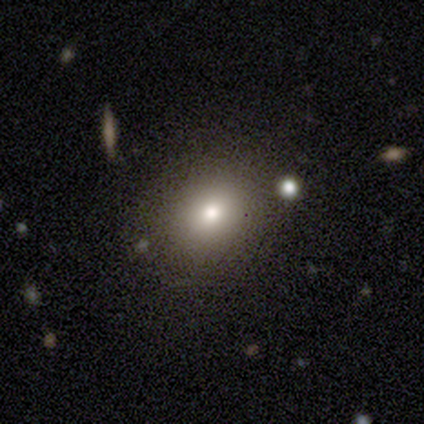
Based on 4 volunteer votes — Morphology: type=smooth (50%); roundness=round (50%, tied with in between); merging=none (100%).